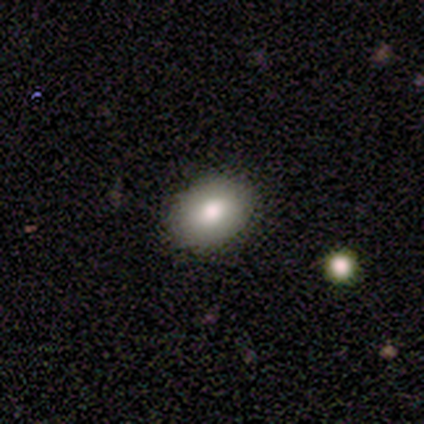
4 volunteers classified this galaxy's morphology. smooth_or_featured: smooth (p=1.00)
how_rounded: in between (p=0.75) [alt: round p=0.25]
merging: none (p=1.00)